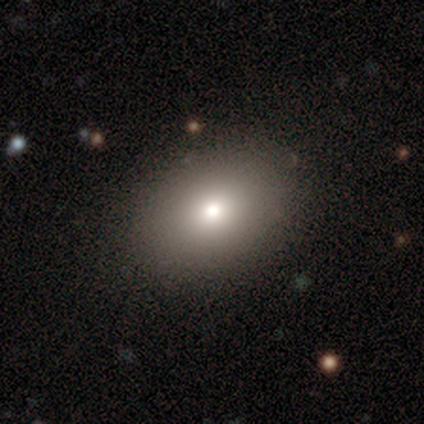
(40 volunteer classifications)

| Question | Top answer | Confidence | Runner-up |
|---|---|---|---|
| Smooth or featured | smooth | 72% | featured or disk (18%) |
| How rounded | in between | 62% | round (38%) |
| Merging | none | 86% | minor disturbance (11%) |